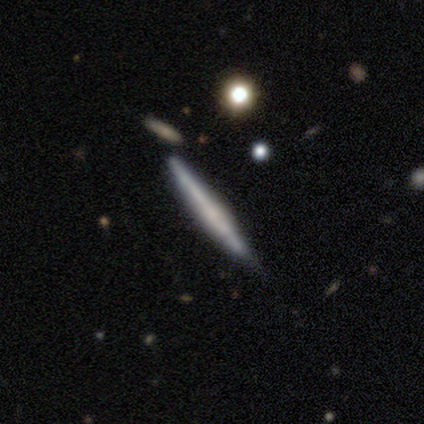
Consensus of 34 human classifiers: Overall: featured or disk (59%; smooth 38%). Edge-on disk: yes (85%). Edge-on bulge: none (65%). Merging: none (73%).